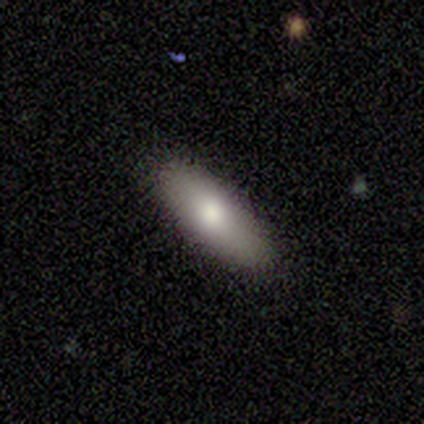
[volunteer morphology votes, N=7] smooth-or-featured: smooth: 100% | featured or disk: 0% | star or artifact: 0%
  how-rounded: in between: 57% | cigar-shaped: 43% | round: 0%
  merging: none: 100% | minor disturbance: 0% | major disturbance: 0% | merger: 0%